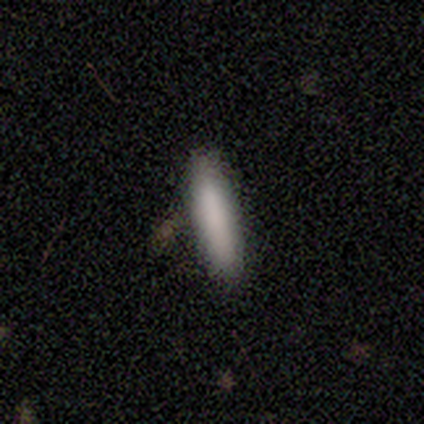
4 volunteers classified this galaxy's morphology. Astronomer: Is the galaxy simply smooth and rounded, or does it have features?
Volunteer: smooth — 100%.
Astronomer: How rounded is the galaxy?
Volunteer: cigar-shaped — 75%.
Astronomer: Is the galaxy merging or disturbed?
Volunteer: none — 50%.